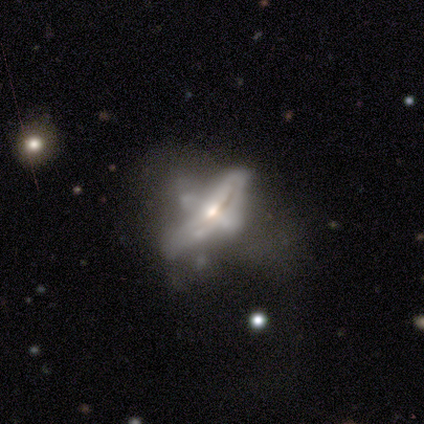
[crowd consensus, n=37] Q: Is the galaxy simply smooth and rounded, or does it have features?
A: featured or disk — 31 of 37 (84%).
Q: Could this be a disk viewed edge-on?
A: no — 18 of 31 (58%).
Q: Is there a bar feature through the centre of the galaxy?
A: no — 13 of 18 (72%).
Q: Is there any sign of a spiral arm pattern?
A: no — 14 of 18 (78%).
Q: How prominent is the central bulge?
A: moderate — 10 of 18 (56%).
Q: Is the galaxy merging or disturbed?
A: major disturbance — 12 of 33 (36%).